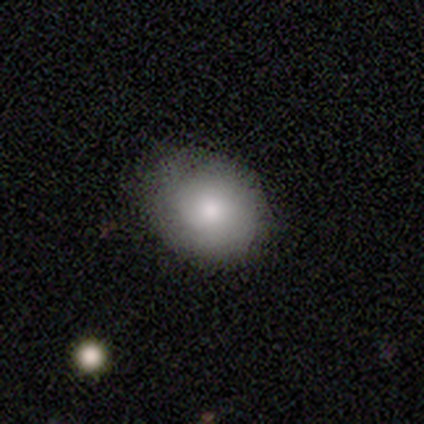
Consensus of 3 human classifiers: smooth 100%, featured or disk 0%, star or artifact 0%. Down the decision tree: how rounded — round (100%); merging — none (67%).